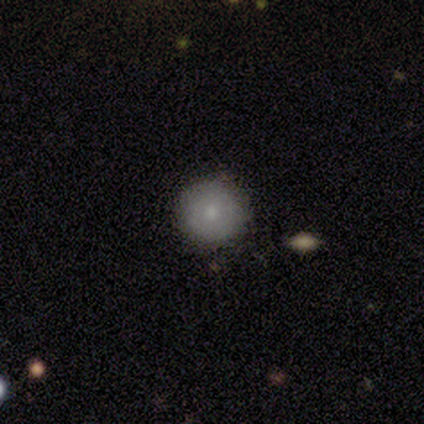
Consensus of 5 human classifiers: smooth-or-featured: smooth: 80% | star or artifact: 20% | featured or disk: 0%
  how-rounded: round: 100% | in between: 0% | cigar-shaped: 0%
  merging: none: 100% | minor disturbance: 0% | major disturbance: 0% | merger: 0%